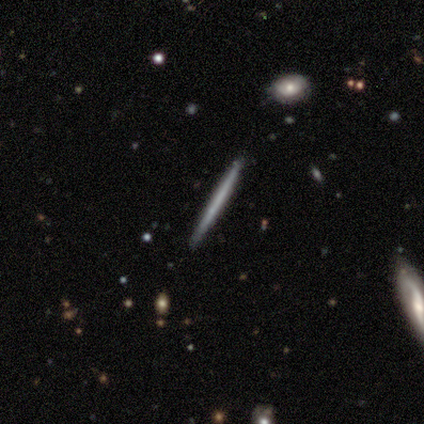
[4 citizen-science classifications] Smooth or featured?
  - featured or disk: 75% *
  - smooth: 25%
  - star or artifact: 0%
Edge-on disk?
  - yes: 100% *
  - no: 0%
Edge-on bulge?
  - none: 100% *
  - boxy: 0%
  - rounded: 0%
Merging?
  - none: 75% *
  - minor disturbance: 25%
  - major disturbance: 0%
  - merger: 0%